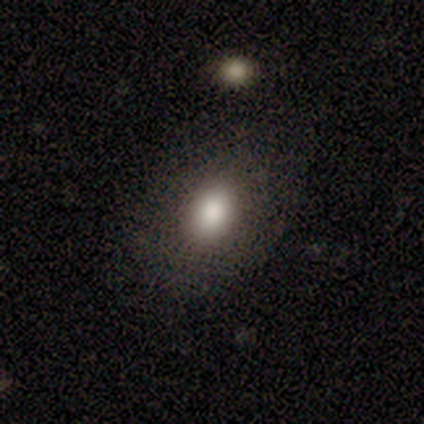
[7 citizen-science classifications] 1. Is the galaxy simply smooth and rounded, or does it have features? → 57% smooth, 29% star or artifact, 14% featured or disk.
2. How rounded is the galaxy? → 75% in between, 25% round, 0% cigar-shaped.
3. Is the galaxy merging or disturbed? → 60% none, 20% minor disturbance, 20% merger, 0% major disturbance.